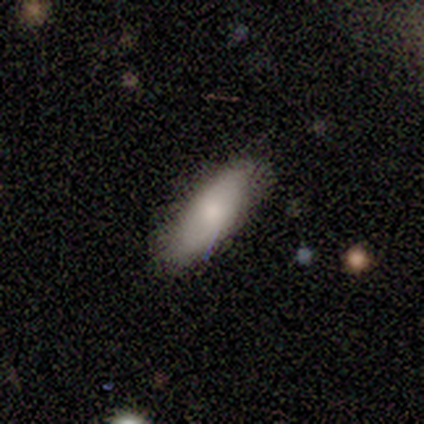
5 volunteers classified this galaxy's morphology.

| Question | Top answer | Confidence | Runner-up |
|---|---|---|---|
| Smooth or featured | smooth | 80% | featured or disk (20%) |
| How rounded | in between | 100% | — |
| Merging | none | 100% | — |